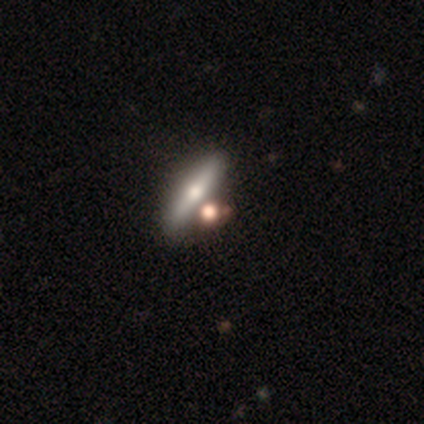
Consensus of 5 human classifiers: smooth-or-featured: featured or disk: 60% | smooth: 20% | star or artifact: 20%
  disk-edge-on: yes: 67% | no: 33%
    edge-on-bulge: rounded: 100% | boxy: 0% | none: 0%
  merging: none: 75% | merger: 25% | minor disturbance: 0% | major disturbance: 0%